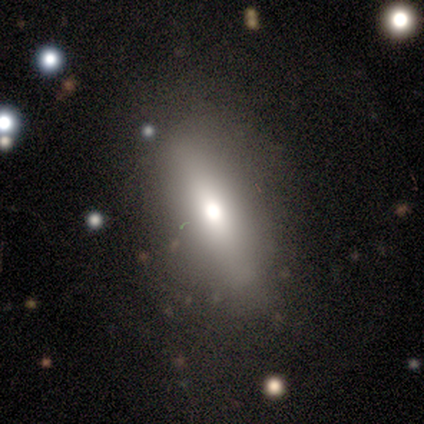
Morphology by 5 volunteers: smooth 60%, featured or disk 20%, star or artifact 20%. Down the decision tree: how rounded — in between (67%); merging — none (100%).